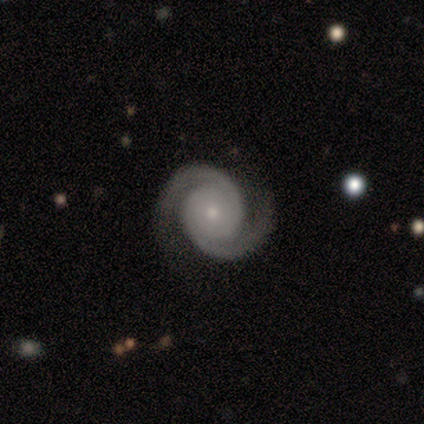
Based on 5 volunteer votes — Volunteers were most divided on "bar": no: 75%, weak: 25%, strong: 0%. More confident: edge-on disk — no (100%); spiral arms — yes (100%); spiral winding — tight (100%); merging — none (100%); smooth or featured — featured or disk (80%); spiral arm count — 2 (75%); bulge size — small (75%).